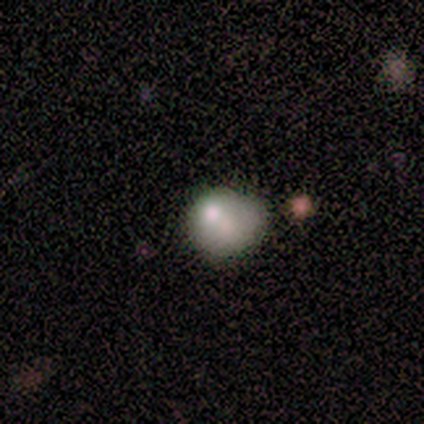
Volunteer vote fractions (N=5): smooth_or_featured: smooth (p=0.40) [tied with: star or artifact p=0.40]
how_rounded: round (p=1.00)
merging: minor disturbance (p=1.00)